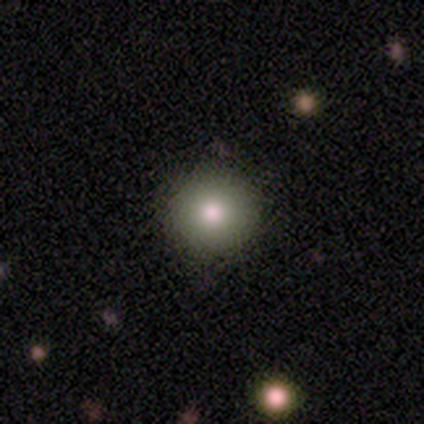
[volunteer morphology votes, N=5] Smooth or featured: smooth — 100%
How rounded: round — 100%
Merging: none — 100%